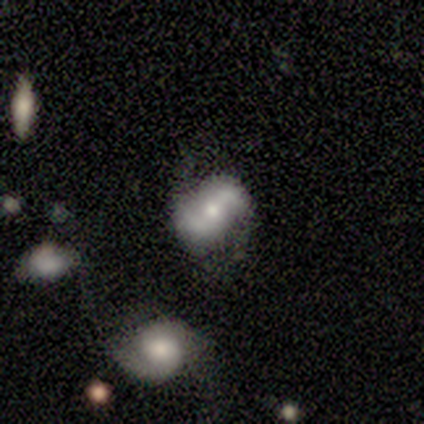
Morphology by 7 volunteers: Smooth or featured? featured or disk (57%)
Edge-on disk? no (100%)
Bar? weak (75%)
Spiral arms? yes (75%)
Spiral winding? loose (100%)
Spiral arm count? 2 (100%)
Bulge size? moderate (50%, tied with small)
Merging? none (50%)